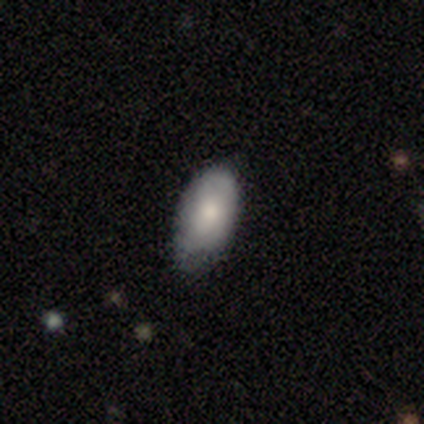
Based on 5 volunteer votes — smooth-or-featured: smooth: 100% | featured or disk: 0% | star or artifact: 0%
  how-rounded: in between: 100% | round: 0% | cigar-shaped: 0%
  merging: minor disturbance: 60% | none: 40% | major disturbance: 0% | merger: 0%